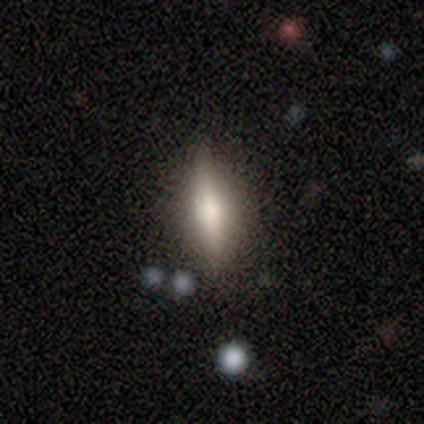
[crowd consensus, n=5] Overall: featured or disk (80%). Edge-on disk: yes (100%). Edge-on bulge: none (50%, tied with rounded). Merging: none (60%; minor disturbance 40%).